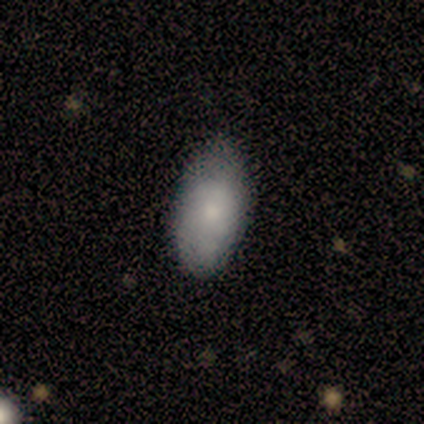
Smooth or featured? 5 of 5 (100%) said smooth. How rounded? 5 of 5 (100%) said in between. Merging? 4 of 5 (80%) said none.